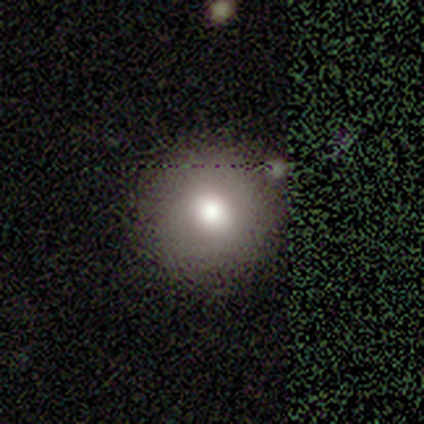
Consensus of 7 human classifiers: A smooth galaxy with no disk features (100%) that is round (100%). Merging: none (100%).